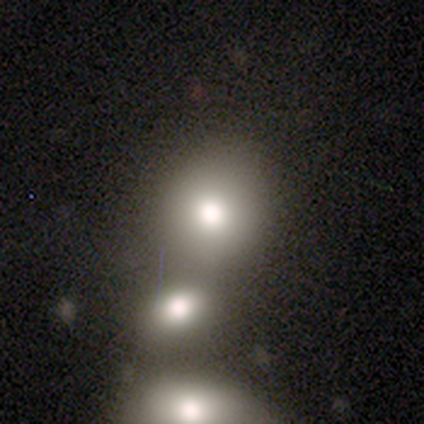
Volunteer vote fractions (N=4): A smooth galaxy with no disk features (100%) that is round (100%).

Vote fractions:
- Smooth or featured? smooth: 100% / featured or disk: 0% / star or artifact: 0%
- How rounded? round: 100% / in between: 0% / cigar-shaped: 0%
- Merging? none: 100% / minor disturbance: 0% / major disturbance: 0% / merger: 0%